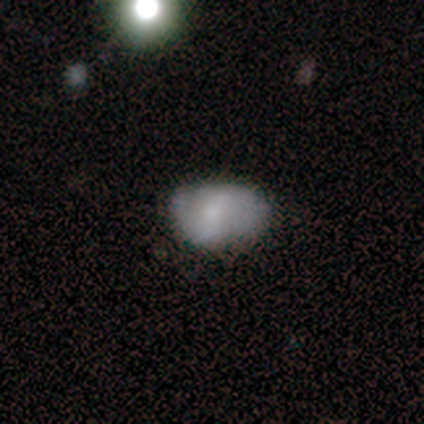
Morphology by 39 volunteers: Smooth or featured?
  - smooth: 51% *
  - featured or disk: 46%
  - star or artifact: 3%
How rounded?
  - in between: 95% *
  - round: 5%
  - cigar-shaped: 0%
Merging?
  - none: 61% *
  - minor disturbance: 37%
  - major disturbance: 3%
  - merger: 0%